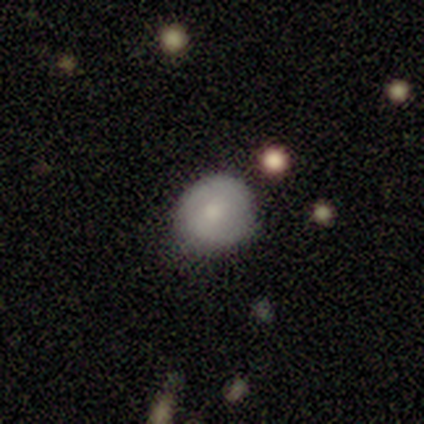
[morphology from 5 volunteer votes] Volunteers were most divided on "how rounded": round: 80%, in between: 20%, cigar-shaped: 0%. More confident: smooth or featured — smooth (100%); merging — none (80%).